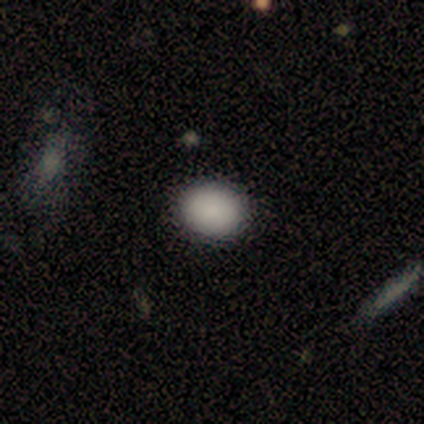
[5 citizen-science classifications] A smooth galaxy with no disk features (100%) that is in between round and cigar-shaped (60%).

Vote fractions:
- Smooth or featured? smooth: 100% / featured or disk: 0% / star or artifact: 0%
- How rounded? in between: 60% / round: 40% / cigar-shaped: 0%
- Merging? none: 100% / minor disturbance: 0% / major disturbance: 0% / merger: 0%